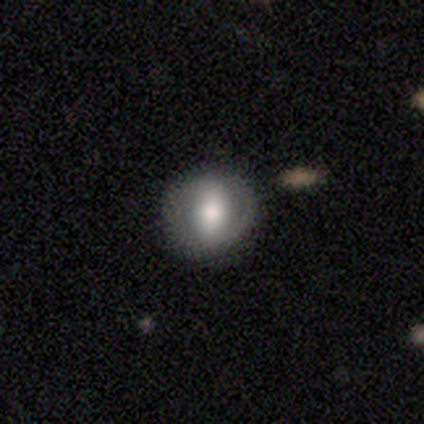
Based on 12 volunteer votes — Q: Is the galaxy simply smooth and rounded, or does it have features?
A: featured or disk — 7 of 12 (58%).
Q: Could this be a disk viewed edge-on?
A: no — 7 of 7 (100%).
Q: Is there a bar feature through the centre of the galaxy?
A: strong — 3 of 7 (43%).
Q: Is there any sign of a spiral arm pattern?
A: no — 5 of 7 (71%).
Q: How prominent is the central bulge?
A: moderate — 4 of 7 (57%).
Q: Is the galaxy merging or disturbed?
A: none — 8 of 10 (80%).